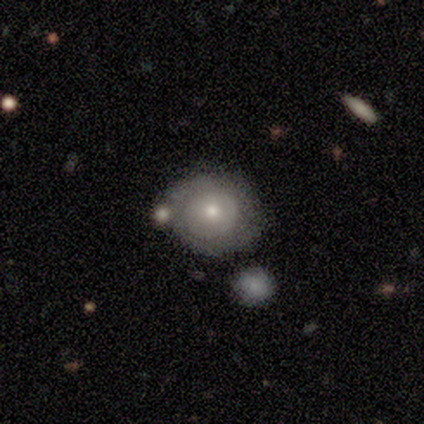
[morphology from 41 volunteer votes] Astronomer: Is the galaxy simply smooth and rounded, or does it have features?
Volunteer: featured or disk — 51% (runner-up: smooth, 49%).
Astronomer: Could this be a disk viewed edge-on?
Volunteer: no — 90%.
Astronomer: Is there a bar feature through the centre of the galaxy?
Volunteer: no — 95%.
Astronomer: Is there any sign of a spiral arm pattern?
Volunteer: yes — 58% (runner-up: no, 42%).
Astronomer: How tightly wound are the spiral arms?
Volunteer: tight — 91%.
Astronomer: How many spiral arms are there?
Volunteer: can't tell — 55%.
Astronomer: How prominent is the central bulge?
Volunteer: moderate — 84%.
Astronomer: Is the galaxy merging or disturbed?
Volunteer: none — 68%.